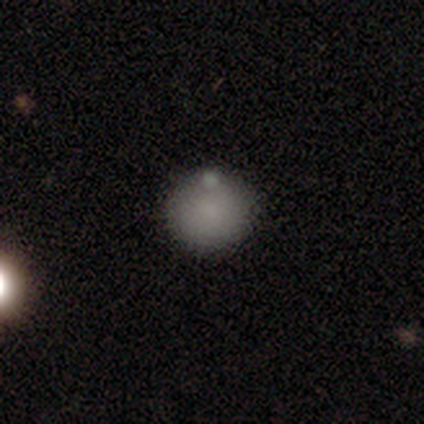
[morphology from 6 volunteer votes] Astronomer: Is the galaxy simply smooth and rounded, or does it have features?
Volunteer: smooth — 83%.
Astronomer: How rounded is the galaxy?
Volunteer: round — 100%.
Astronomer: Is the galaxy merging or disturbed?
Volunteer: none — 100%.